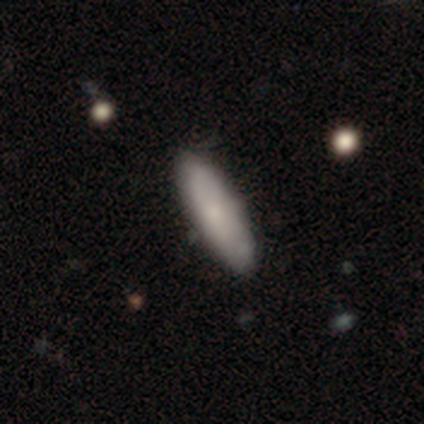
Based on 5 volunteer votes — Volunteers were most divided on "smooth or featured": smooth: 60%, featured or disk: 40%, star or artifact: 0%. More confident: how rounded — cigar-shaped (67%); merging — none (60%).